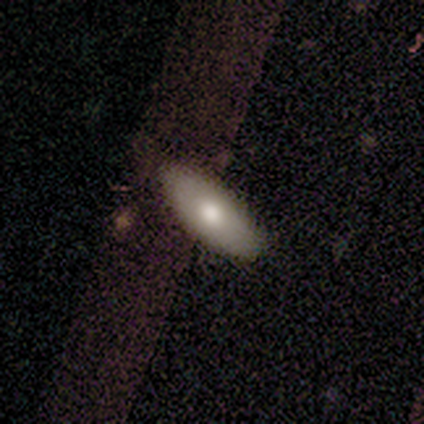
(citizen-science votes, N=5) A smooth galaxy with no disk features (60%) that is in between round and cigar-shaped (100%).

Vote fractions:
- Smooth or featured? smooth: 60% / featured or disk: 40% / star or artifact: 0%
- How rounded? in between: 100% / round: 0% / cigar-shaped: 0%
- Merging? none: 60% / minor disturbance: 40% / major disturbance: 0% / merger: 0%